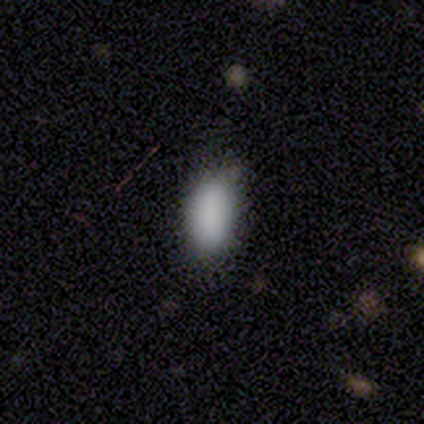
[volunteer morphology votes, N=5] Volunteers were most divided on "merging": none: 60%, minor disturbance: 40%, major disturbance: 0%, merger: 0%. More confident: smooth or featured — smooth (100%); how rounded — in between (100%).